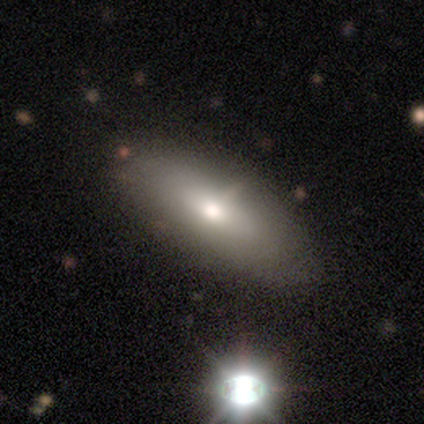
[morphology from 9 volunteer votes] type=smooth (56%); roundness=in between (60%); merging=none (56%).